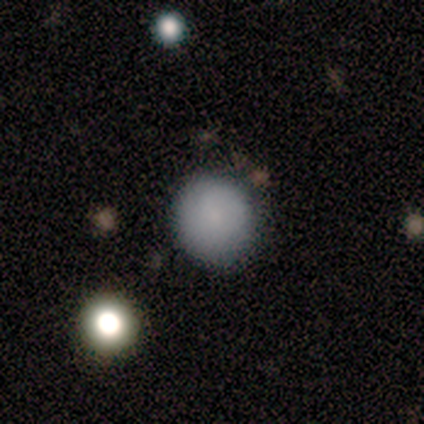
This appears to be a smooth galaxy with no disk features (92%) that is round (100%). Merging: none (92%).